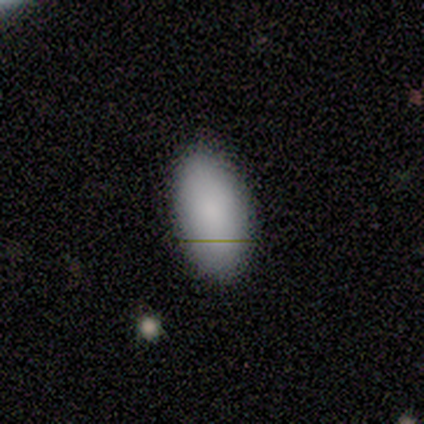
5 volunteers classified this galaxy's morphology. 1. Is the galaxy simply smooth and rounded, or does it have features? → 100% smooth, 0% featured or disk, 0% star or artifact.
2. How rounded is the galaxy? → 100% in between, 0% round, 0% cigar-shaped.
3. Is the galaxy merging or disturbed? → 80% none, 20% minor disturbance, 0% major disturbance, 0% merger.